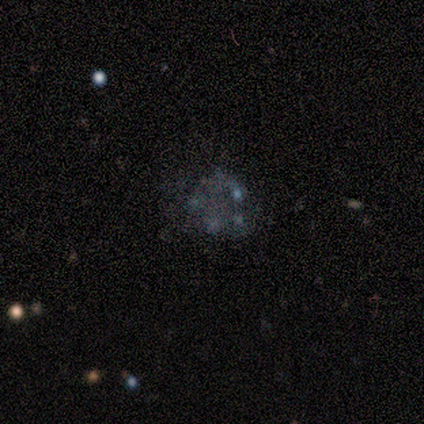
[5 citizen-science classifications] featured or disk 100%, smooth 0%, star or artifact 0%. Down the decision tree: edge-on disk — no (100%); bar — no (100%); spiral arms — no (100%); bulge size — none (100%); merging — none (40%, tied with merger).